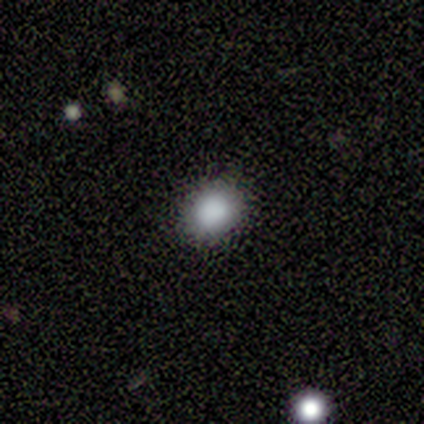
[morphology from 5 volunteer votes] smooth 100%, featured or disk 0%, star or artifact 0%. Down the decision tree: how rounded — round (60%); merging — none (100%).